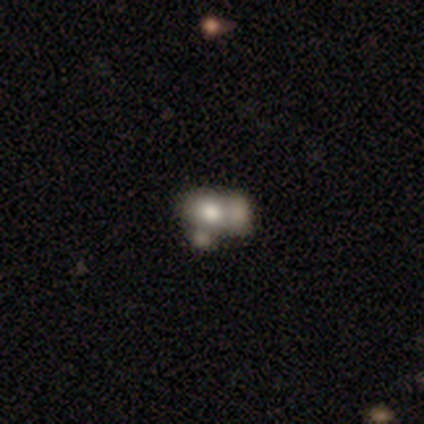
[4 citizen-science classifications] smooth 50% (tied), featured or disk 50% (tied), star or artifact 0%. Down the decision tree: how rounded — in between (100%); merging — merger (100%).